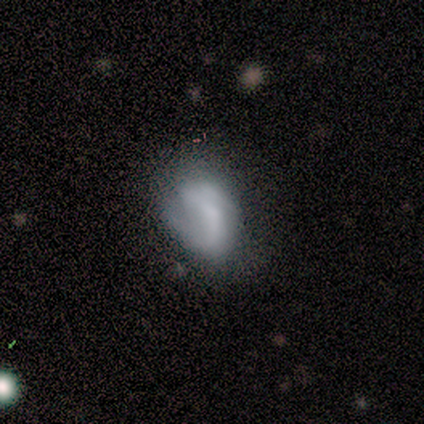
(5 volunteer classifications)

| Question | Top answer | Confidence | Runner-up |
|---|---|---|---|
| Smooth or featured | featured or disk | 60% | smooth (20%) |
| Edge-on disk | no | 100% | — |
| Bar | no | 67% | weak (33%) |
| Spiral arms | yes | 67% | no (33%) |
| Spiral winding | tight | 50% | tied: loose (50%) |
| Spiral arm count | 1 | 100% | — |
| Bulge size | none | 67% | moderate (33%) |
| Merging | none | 50% | minor disturbance (25%) |